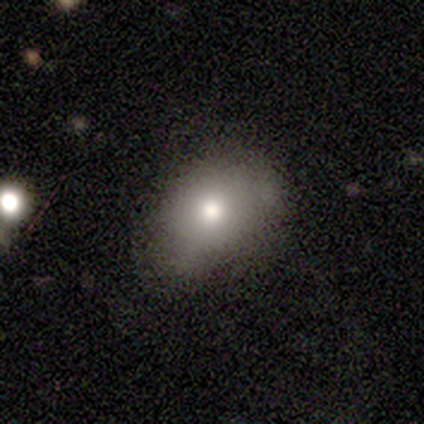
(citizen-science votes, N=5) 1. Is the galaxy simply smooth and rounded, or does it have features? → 80% smooth, 20% star or artifact, 0% featured or disk.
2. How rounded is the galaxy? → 100% in between, 0% round, 0% cigar-shaped.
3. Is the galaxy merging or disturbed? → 75% none, 25% minor disturbance, 0% major disturbance, 0% merger.